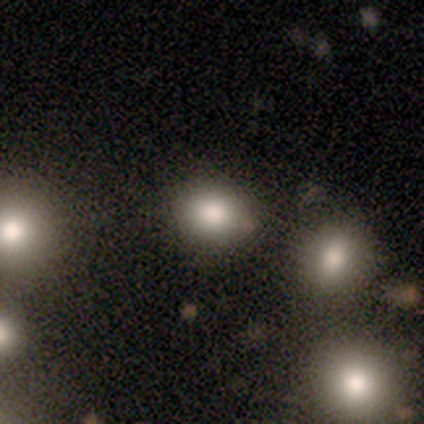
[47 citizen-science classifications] Smooth or featured? smooth (77%)
How rounded? round (78%)
Merging? none (84%)